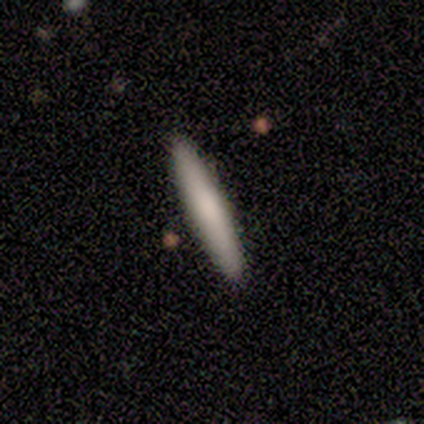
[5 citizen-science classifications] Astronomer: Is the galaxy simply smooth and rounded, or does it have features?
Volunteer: smooth — 100%.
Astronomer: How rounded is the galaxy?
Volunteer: cigar-shaped — 100%.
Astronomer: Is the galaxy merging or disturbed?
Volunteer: none — 100%.